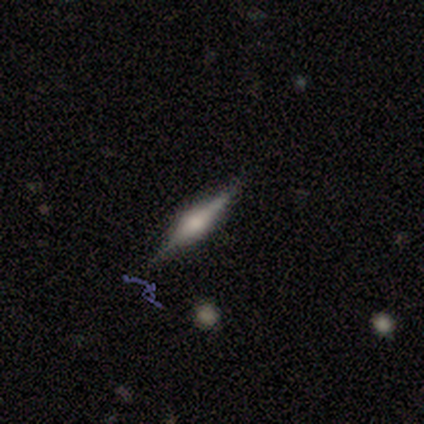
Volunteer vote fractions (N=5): Smooth or featured?
  - featured or disk: 80% *
  - star or artifact: 20%
  - smooth: 0%
Edge-on disk?
  - yes: 100% *
  - no: 0%
Edge-on bulge?
  - rounded: 75% *
  - none: 25%
  - boxy: 0%
Merging?
  - none: 100% *
  - minor disturbance: 0%
  - major disturbance: 0%
  - merger: 0%